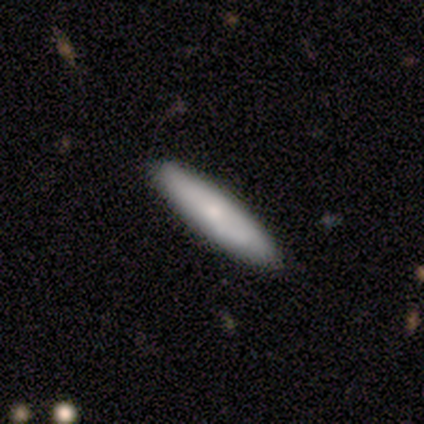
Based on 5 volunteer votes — This appears to be a smooth galaxy with no disk features (60%) that is cigar-shaped (67%). Merging: none (80%).